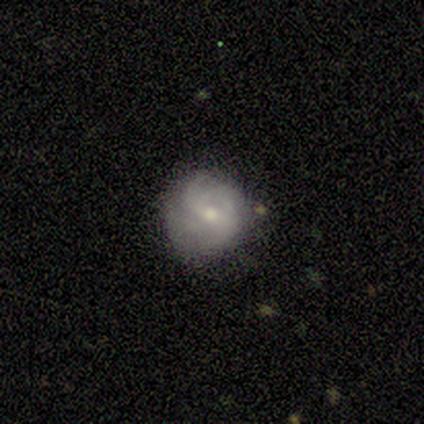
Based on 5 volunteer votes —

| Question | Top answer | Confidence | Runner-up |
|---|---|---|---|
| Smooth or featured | featured or disk | 60% | smooth (40%) |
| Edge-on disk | no | 100% | — |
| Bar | weak | 67% | no (33%) |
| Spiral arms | no | 67% | yes (33%) |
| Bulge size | small | 100% | — |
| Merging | none | 60% | minor disturbance (20%) |